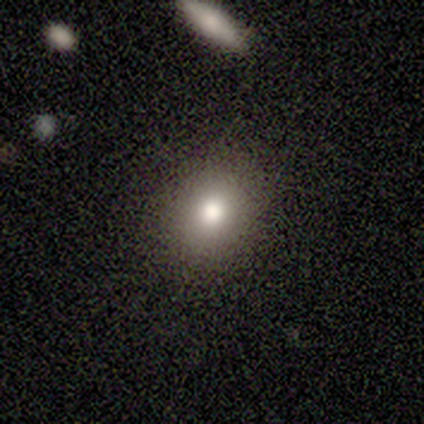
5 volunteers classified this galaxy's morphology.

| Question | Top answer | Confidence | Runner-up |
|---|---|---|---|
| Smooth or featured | smooth | 80% | star or artifact (20%) |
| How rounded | in between | 75% | round (25%) |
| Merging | none | 100% | — |